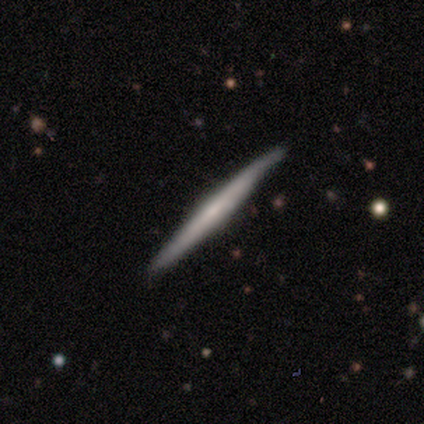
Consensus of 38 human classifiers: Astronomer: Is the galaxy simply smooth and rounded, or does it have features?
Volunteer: featured or disk — 63%.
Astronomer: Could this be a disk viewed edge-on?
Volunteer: yes — 96%.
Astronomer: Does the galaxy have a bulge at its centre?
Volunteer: none — 65%.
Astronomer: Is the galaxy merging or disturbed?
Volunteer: none — 86%.